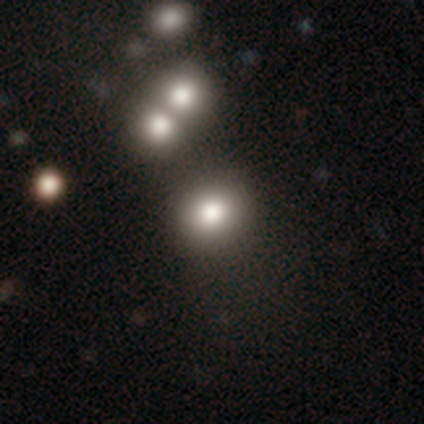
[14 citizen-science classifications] smooth_or_featured: smooth (p=0.57) [alt: featured or disk p=0.29]
how_rounded: round (p=0.62) [alt: in between p=0.38]
merging: none (p=0.83) [alt: minor disturbance p=0.08]